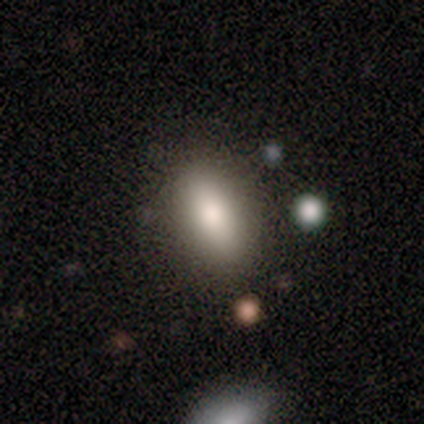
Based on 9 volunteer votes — smooth-or-featured: smooth: 56% | featured or disk: 44% | star or artifact: 0%
  how-rounded: in between: 60% | cigar-shaped: 40% | round: 0%
  merging: none: 78% | minor disturbance: 22% | major disturbance: 0% | merger: 0%